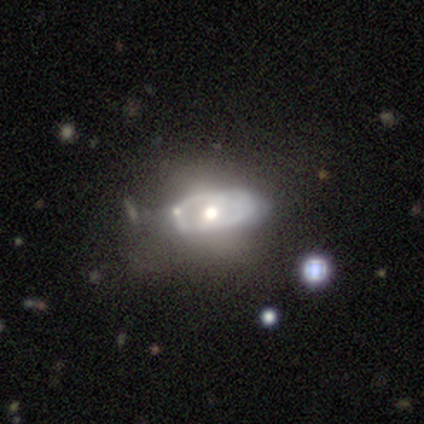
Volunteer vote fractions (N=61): Morphology: type=featured or disk (84%); edge-on=no (94%); bar=no (69%); spiral arms=no (62%); bulge=moderate (62%); merging=none (31%).